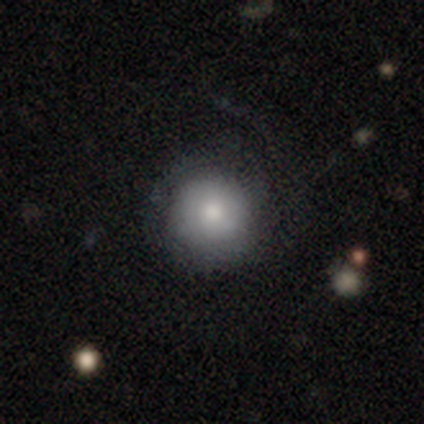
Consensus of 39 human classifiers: smooth-or-featured: smooth: 72% | featured or disk: 21% | star or artifact: 8%
  how-rounded: round: 93% | in between: 7% | cigar-shaped: 0%
  merging: none: 64% | minor disturbance: 19% | major disturbance: 11% | merger: 6%